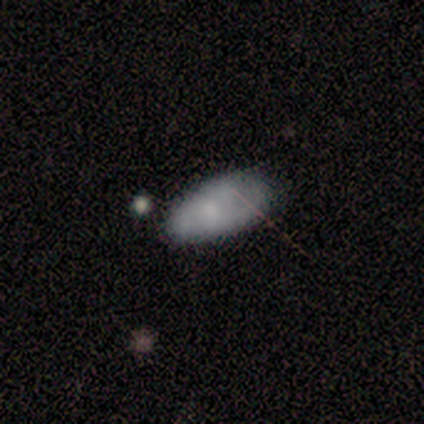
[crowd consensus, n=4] Smooth or featured?
  - smooth: 50% * (tied)
  - featured or disk: 50% * (tied)
  - star or artifact: 0%
How rounded?
  - in between: 100% *
  - round: 0%
  - cigar-shaped: 0%
Merging?
  - none: 50% * (tied)
  - minor disturbance: 50% * (tied)
  - major disturbance: 0%
  - merger: 0%